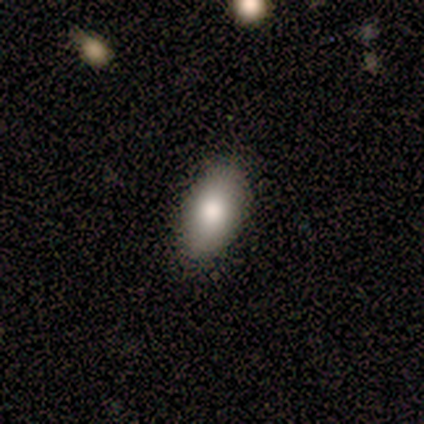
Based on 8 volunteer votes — This is clearly a smooth galaxy (88%). How rounded: clearly in between (100%). Merging: likely none (75%).